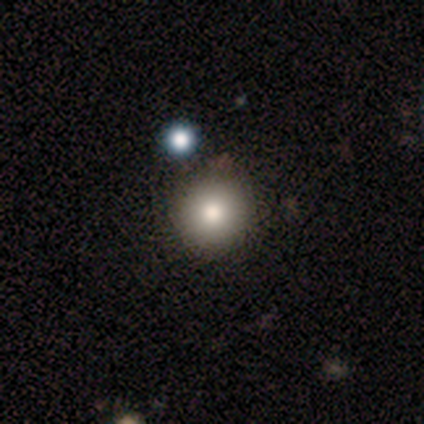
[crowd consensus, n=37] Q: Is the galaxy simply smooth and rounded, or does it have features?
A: smooth — 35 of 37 (95%).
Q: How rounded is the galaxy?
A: round — 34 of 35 (97%).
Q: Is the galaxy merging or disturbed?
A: none — 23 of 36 (64%).